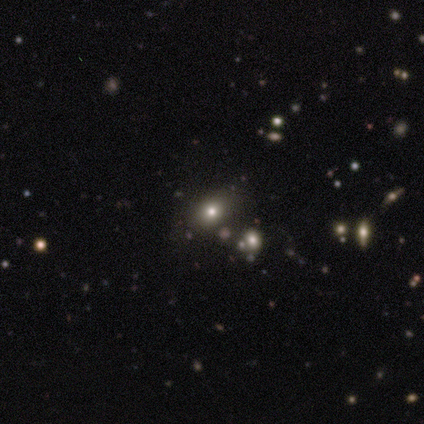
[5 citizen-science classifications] smooth 40% (tied), featured or disk 40% (tied), star or artifact 20%. Down the decision tree: how rounded — in between (100%); merging — none (100%).